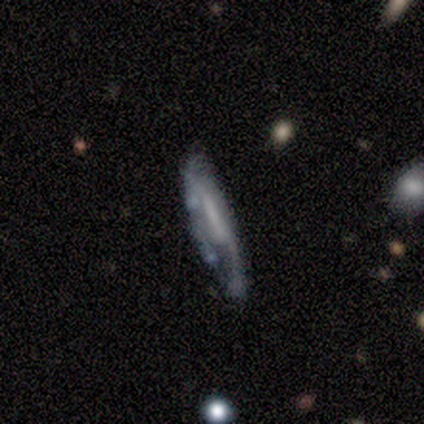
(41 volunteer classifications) Smooth or featured? 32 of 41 (78%) said featured or disk. Edge-on disk? 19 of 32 (59%) said no. Bar? 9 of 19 (47%) said weak. Spiral arms? 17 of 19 (89%) said yes. Spiral winding? 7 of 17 (41%) said loose. Spiral arm count? 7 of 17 (41%) said can't tell. Bulge size? 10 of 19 (53%) said none. Merging? 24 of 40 (60%) said none.